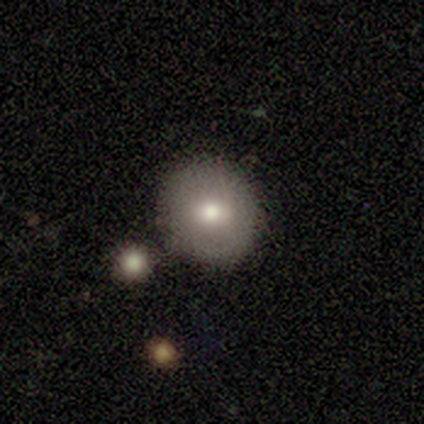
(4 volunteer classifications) Q: Smooth or featured?
A: smooth (75%); runner-up: featured or disk (25%)
Q: How rounded?
A: round (100%)
Q: Merging?
A: none (100%)